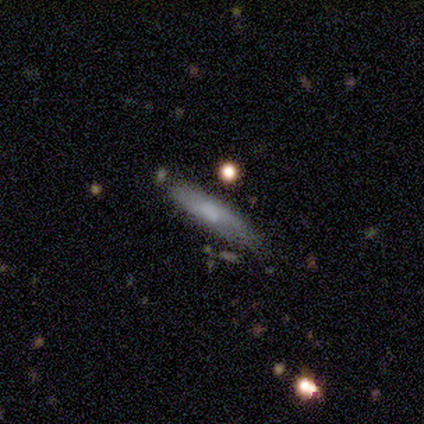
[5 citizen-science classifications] Overall: smooth (80%). How rounded: cigar-shaped (75%). Merging: minor disturbance (60%; none 40%).